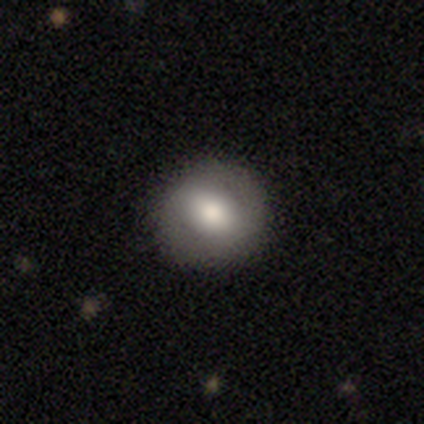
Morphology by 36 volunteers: This is possibly a smooth galaxy (56%). How rounded: clearly round (90%). Merging: clearly none (97%).